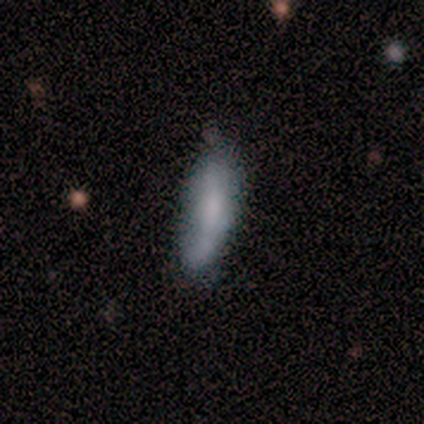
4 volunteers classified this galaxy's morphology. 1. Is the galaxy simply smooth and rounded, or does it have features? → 100% smooth, 0% featured or disk, 0% star or artifact.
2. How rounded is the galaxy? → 75% in between, 25% cigar-shaped, 0% round.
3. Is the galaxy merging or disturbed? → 50% none, 25% minor disturbance, 25% merger, 0% major disturbance.